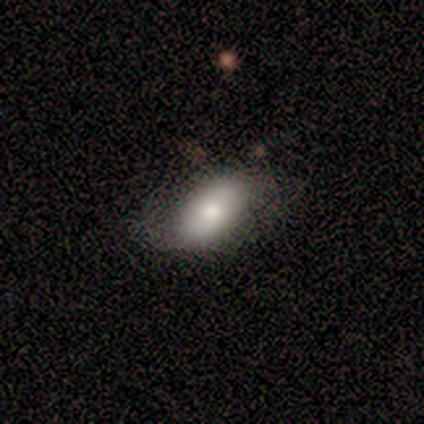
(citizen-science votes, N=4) A smooth galaxy with no disk features (50%, tied with featured or disk) that is in between round and cigar-shaped (100%). Merging: none (50%).